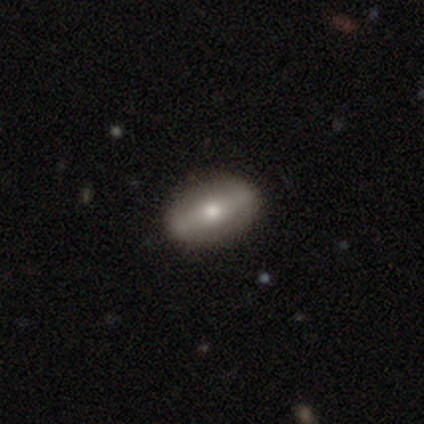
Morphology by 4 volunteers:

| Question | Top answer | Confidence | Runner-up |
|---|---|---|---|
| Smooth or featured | smooth | 75% | featured or disk (25%) |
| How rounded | cigar-shaped | 67% | in between (33%) |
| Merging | none | 75% | minor disturbance (25%) |